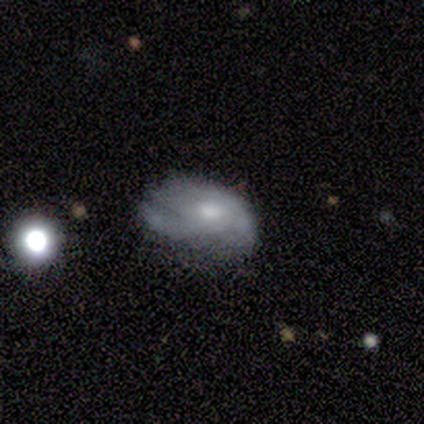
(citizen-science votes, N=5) This is marginally a smooth galaxy (40%, tied with featured or disk). How rounded: clearly in between (100%). Merging: likely minor disturbance (75%).